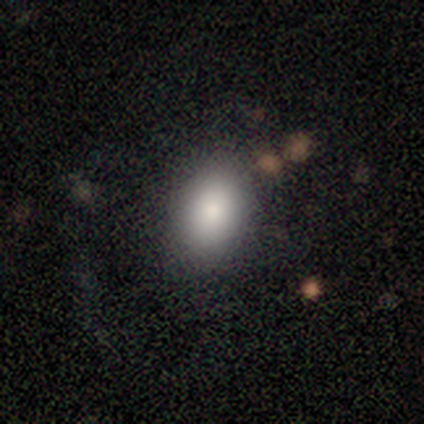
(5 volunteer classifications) Smooth or featured? smooth (80%)
How rounded? in between (75%)
Merging? none (75%)